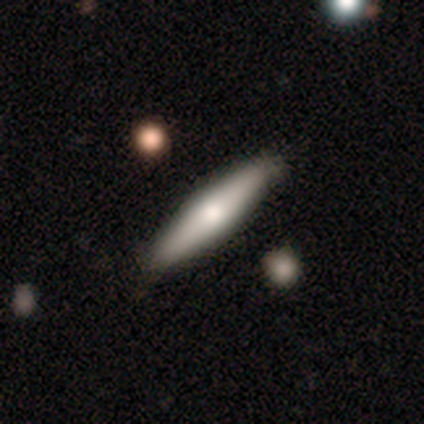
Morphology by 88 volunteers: A smooth galaxy with no disk features (59%) that is cigar-shaped (88%). Merging: none (84%).